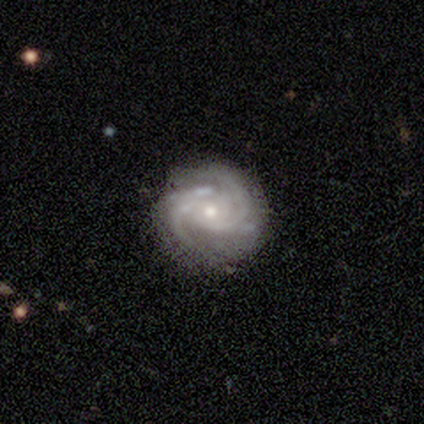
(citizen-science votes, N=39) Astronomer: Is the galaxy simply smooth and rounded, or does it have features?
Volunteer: featured or disk — 90%.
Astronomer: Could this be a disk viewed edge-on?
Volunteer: no — 100%.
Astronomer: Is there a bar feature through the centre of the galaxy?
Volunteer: no — 74%.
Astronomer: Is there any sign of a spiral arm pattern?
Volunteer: yes — 100%.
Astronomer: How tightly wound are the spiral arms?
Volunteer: tight — 57% (runner-up: medium, 37%).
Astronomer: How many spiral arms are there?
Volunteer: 2 — 46% (runner-up: 3, 31%).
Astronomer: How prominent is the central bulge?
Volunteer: moderate — 66%.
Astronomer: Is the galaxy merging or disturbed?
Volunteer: none — 81%.